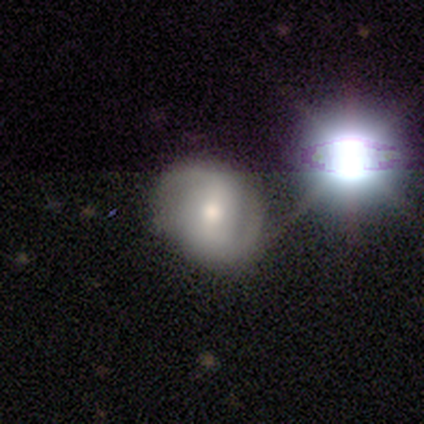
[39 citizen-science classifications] A featured or disk galaxy (56%) with a strong bar (41%, tied with weak), 2 (84%) loose (47%) spiral arms (86%) and a moderate central bulge (50%). Merging: none (72%).